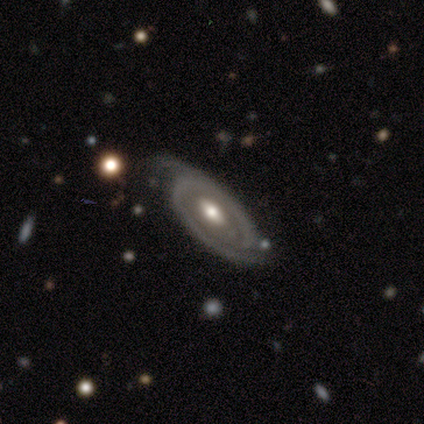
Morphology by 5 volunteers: This is clearly a featured or disk galaxy (80%). It is likely not viewed edge-on (75%). Bar: likely weak (67%). Spiral arm pattern: likely yes (67%). Spiral arm count: clearly 2 (100%). Spiral winding: clearly medium (100%). Central bulge: clearly moderate (100%). Merging: marginally none (40%, tied with major disturbance).